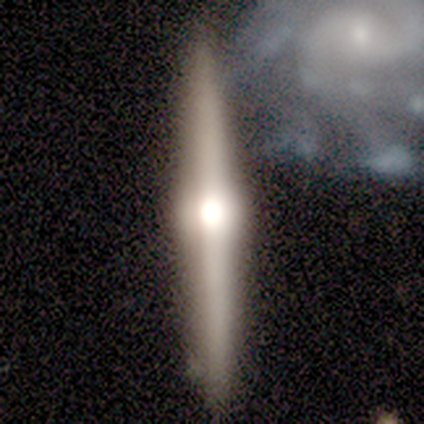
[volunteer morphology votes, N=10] smooth_or_featured: featured or disk (p=0.90) [alt: star or artifact p=0.10]
disk_edge_on: yes (p=1.00)
edge_on_bulge: rounded (p=1.00)
merging: none (p=0.78) [alt: minor disturbance p=0.11]